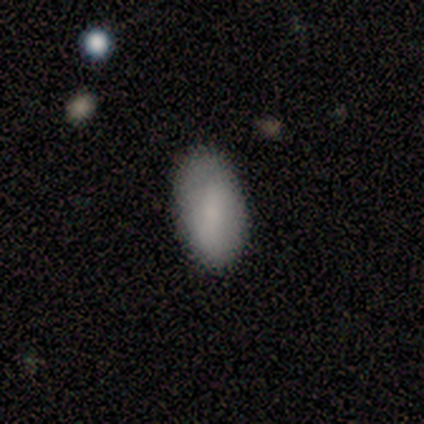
Volunteers were most divided on "merging": none: 80%, minor disturbance: 20%, major disturbance: 0%, merger: 0%. More confident: how rounded — in between (100%); smooth or featured — smooth (91%).